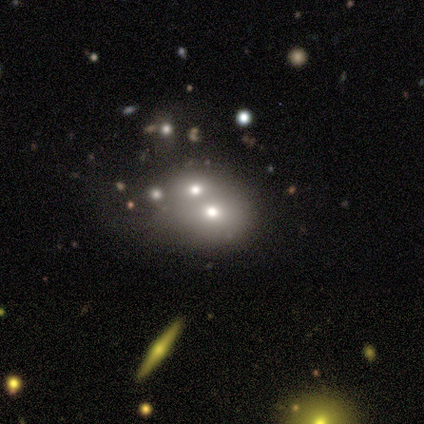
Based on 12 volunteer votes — Overall: featured or disk (50%; smooth 25%). Edge-on disk: no (100%). Bar: no (83%). Spiral arms: no (100%). Bulge size: moderate (50%; dominant 33%). Merging: merger (78%).